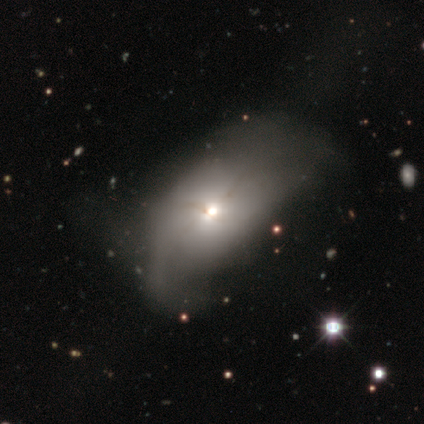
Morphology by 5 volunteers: smooth_or_featured: smooth (p=0.60) [alt: featured or disk p=0.40]
how_rounded: in between (p=1.00)
merging: major disturbance (p=0.80) [alt: none p=0.20]